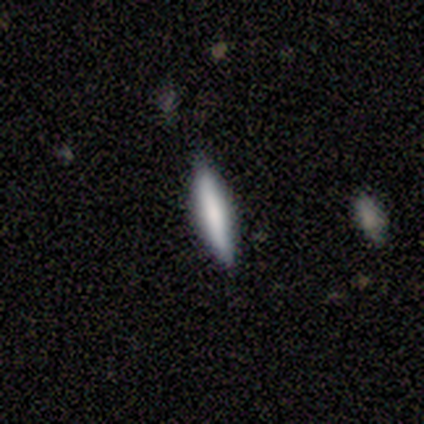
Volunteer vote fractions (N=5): smooth-or-featured: smooth: 60% | featured or disk: 40% | star or artifact: 0%
  how-rounded: cigar-shaped: 100% | round: 0% | in between: 0%
  merging: none: 100% | minor disturbance: 0% | major disturbance: 0% | merger: 0%